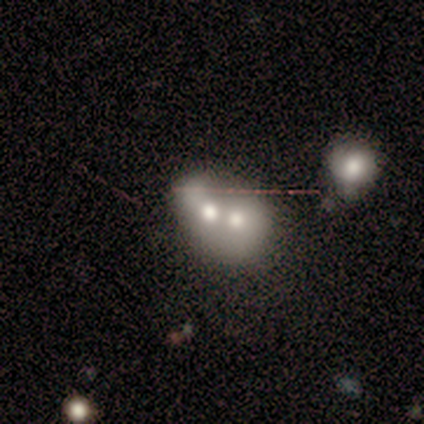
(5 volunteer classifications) Q: Smooth or featured?
A: smooth (40%); tied with: featured or disk (40%)
Q: How rounded?
A: round (100%)
Q: Merging?
A: merger (75%); runner-up: minor disturbance (25%)